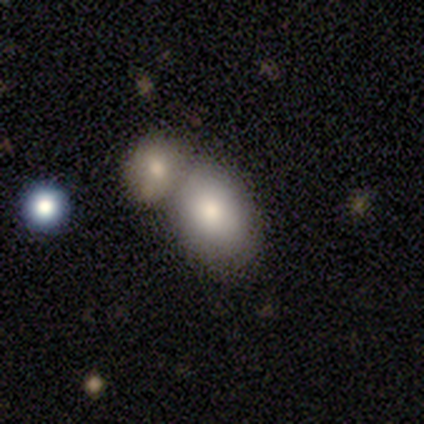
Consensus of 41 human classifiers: Volunteers were most divided on "merging": merger: 47%, none: 39%, minor disturbance: 11%, major disturbance: 3%. More confident: smooth or featured — smooth (78%); how rounded — in between (75%).